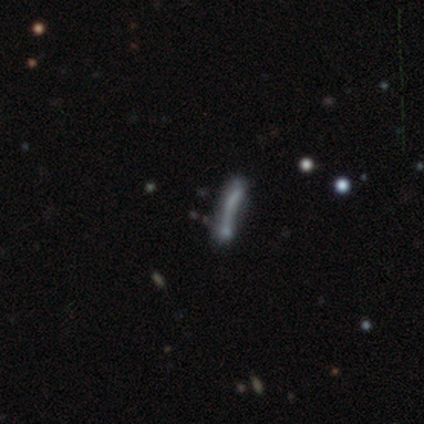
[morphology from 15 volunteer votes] Smooth or featured? smooth (47%)
How rounded? cigar-shaped (86%)
Merging? none (50%)